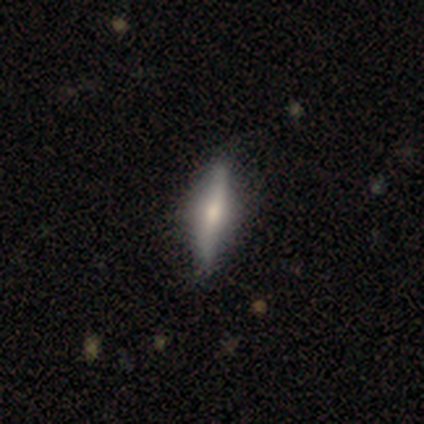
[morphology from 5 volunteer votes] This is clearly a featured or disk galaxy (100%). It is clearly viewed edge-on (100%). Edge-on bulge: clearly rounded (100%). Merging: clearly none (80%).